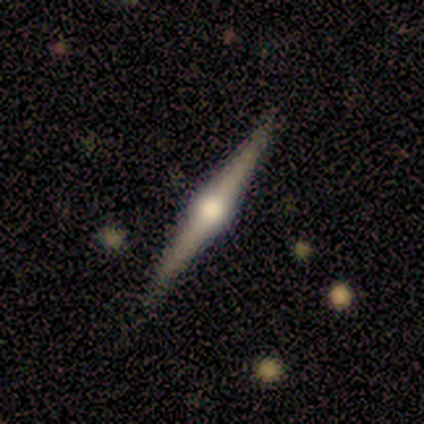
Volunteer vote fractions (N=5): Q: Smooth or featured?
A: featured or disk (100%)
Q: Edge-on disk?
A: yes (100%)
Q: Edge-on bulge?
A: rounded (80%); runner-up: boxy (20%)
Q: Merging?
A: none (100%)